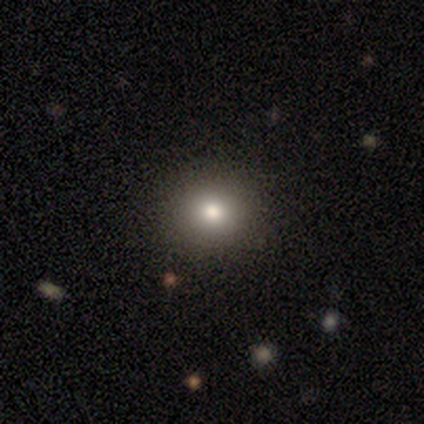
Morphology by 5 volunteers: Overall: smooth (100%). How rounded: round (100%). Merging: none (60%; minor disturbance 20%).